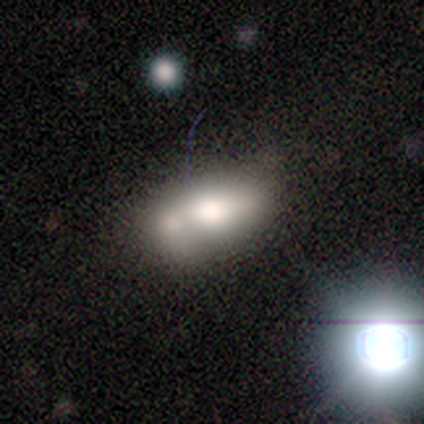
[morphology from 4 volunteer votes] This is possibly a smooth galaxy (50%). How rounded: clearly in between (100%). Merging: likely merger (67%).